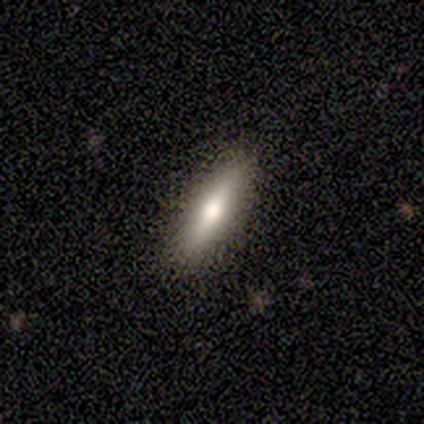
This appears to be a smooth galaxy with no disk features (80%) that is in between round and cigar-shaped (50%, tied with cigar-shaped). Merging: none (100%).